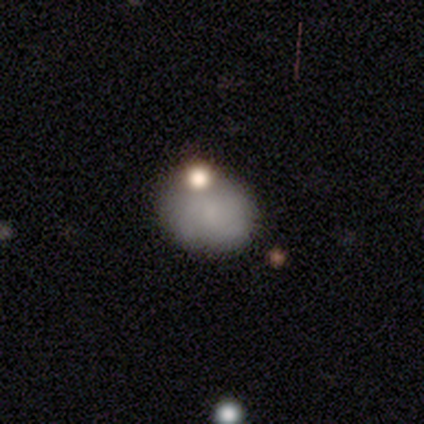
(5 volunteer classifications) This appears to be a smooth galaxy with no disk features (80%) that is in between round and cigar-shaped (75%). Merging: none (80%).